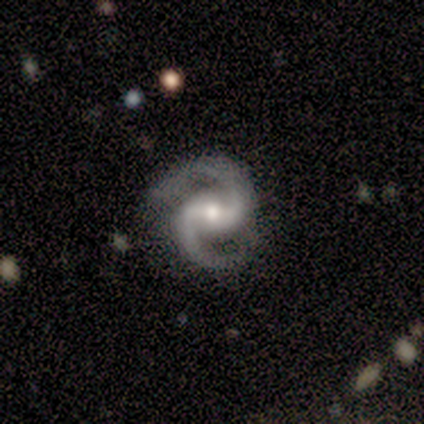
This appears to be a featured or disk galaxy (100%) with a weak bar (80%), 2 (100%) medium (75%) spiral arms (80%) and a small central bulge (60%). Merging: none (80%).